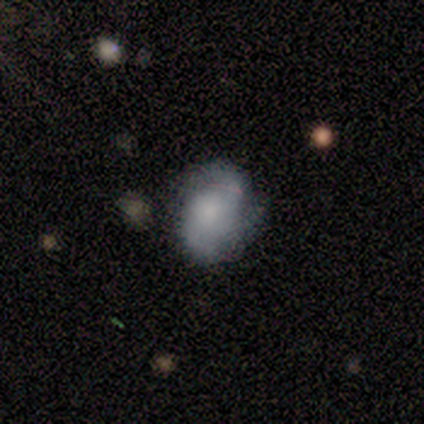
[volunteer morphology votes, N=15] smooth_or_featured: featured or disk (p=0.60) [alt: smooth p=0.40]
disk_edge_on: no (p=1.00)
bar: no (p=0.89) [alt: strong p=0.11]
has_spiral_arms: yes (p=0.78) [alt: no p=0.22]
spiral_winding: medium (p=0.71) [alt: tight p=0.14]
spiral_arm_count: 3 (p=0.43) [alt: 2 p=0.29]
bulge_size: moderate (p=0.33) [tied with: none p=0.33]
merging: none (p=0.67) [alt: major disturbance p=0.20]